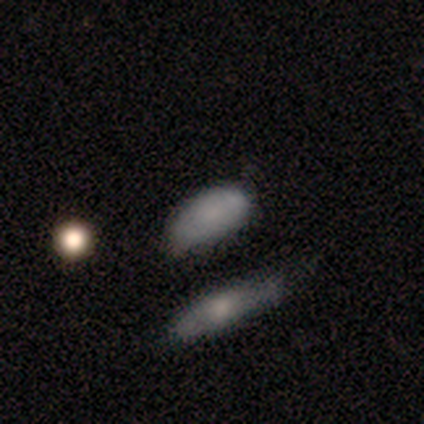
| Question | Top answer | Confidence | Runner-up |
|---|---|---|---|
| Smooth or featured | smooth | 75% | featured or disk (25%) |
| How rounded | in between | 67% | cigar-shaped (33%) |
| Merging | none | 50% | minor disturbance (25%) |